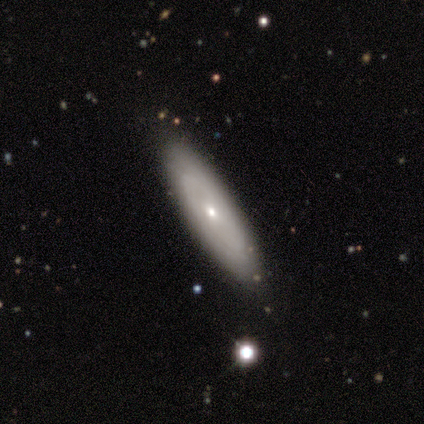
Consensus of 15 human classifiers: Smooth or featured?
  - featured or disk: 53% *
  - smooth: 47%
  - star or artifact: 0%
Edge-on disk?
  - no: 75% *
  - yes: 25%
Bar?
  - no: 100% *
  - strong: 0%
  - weak: 0%
Spiral arms?
  - yes: 50% * (tied)
  - no: 50% * (tied)
Spiral winding?
  - tight: 100% *
  - medium: 0%
  - loose: 0%
Spiral arm count?
  - can't tell: 67% *
  - 2: 33%
  - 1: 0%
  - 3: 0%
  - 4: 0%
  - more than 4: 0%
Bulge size?
  - small: 67% *
  - moderate: 33%
  - dominant: 0%
  - large: 0%
  - none: 0%
Merging?
  - none: 87% *
  - minor disturbance: 13%
  - major disturbance: 0%
  - merger: 0%